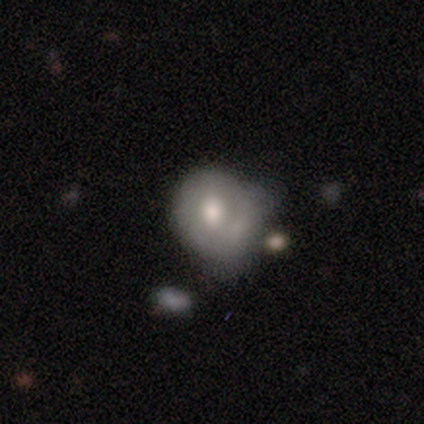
Smooth or featured?
  - smooth: 61% *
  - featured or disk: 33%
  - star or artifact: 6%
How rounded?
  - round: 63% *
  - in between: 35%
  - cigar-shaped: 1%
Merging?
  - minor disturbance: 28% *
  - major disturbance: 27%
  - none: 25%
  - merger: 20%